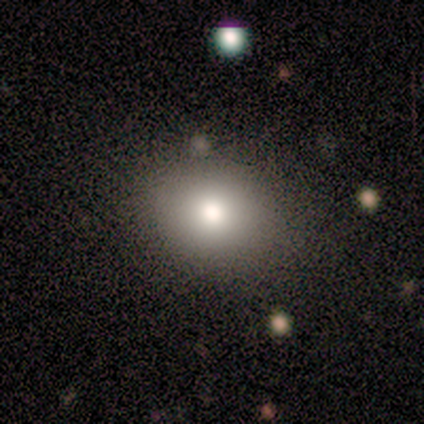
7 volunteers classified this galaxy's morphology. Q: Smooth or featured?
A: smooth (71%); runner-up: star or artifact (29%)
Q: How rounded?
A: round (60%); runner-up: in between (40%)
Q: Merging?
A: none (100%)